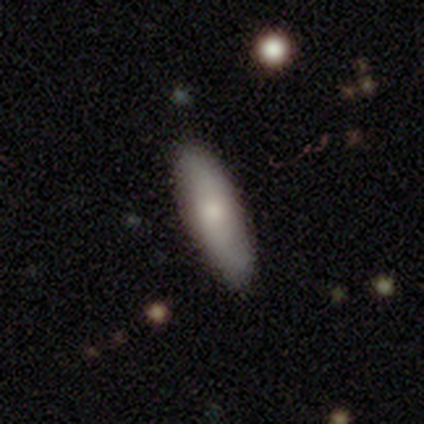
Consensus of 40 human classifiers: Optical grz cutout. It shows a smooth galaxy with no disk features (75%) that is in between round and cigar-shaped (60%). Merging: none (59%).